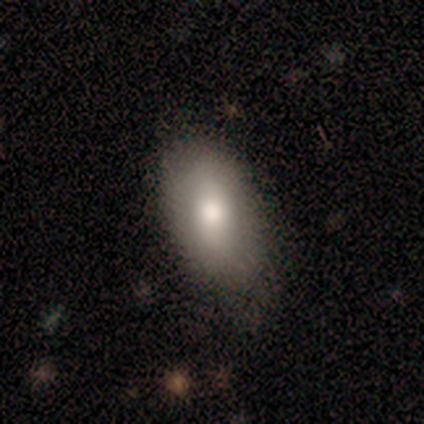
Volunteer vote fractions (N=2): Smooth or featured? 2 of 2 (100%) said smooth. How rounded? 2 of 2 (100%) said in between. Merging? 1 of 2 (50%, tied with minor disturbance) said none.